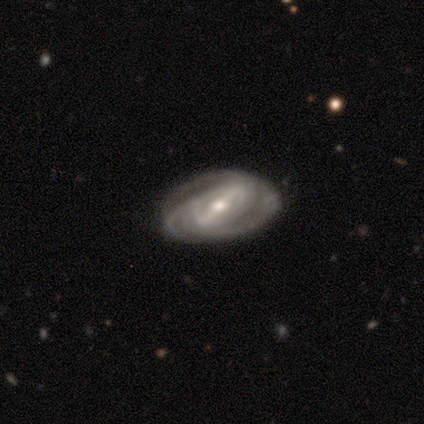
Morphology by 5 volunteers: This is clearly a featured or disk galaxy (80%). It is clearly not viewed edge-on (100%). Bar: likely strong (75%). Spiral arm pattern: clearly yes (100%). Spiral arm count: possibly 2 (50%, tied with 3). Spiral winding: likely medium (75%). Central bulge: likely small (75%). Merging: clearly none (80%).